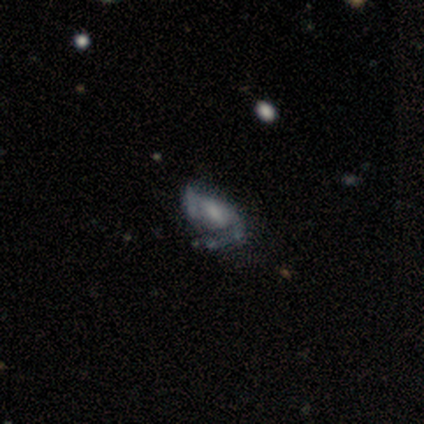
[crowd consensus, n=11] This is likely a featured or disk galaxy (73%). It is clearly not viewed edge-on (100%). Bar: possibly weak (50%, tied with no). Spiral arm pattern: possibly yes (50%, tied with no). Spiral arm count: possibly 1 (50%). Spiral winding: possibly tight (50%). Central bulge: possibly moderate (50%). Merging: possibly none (50%).